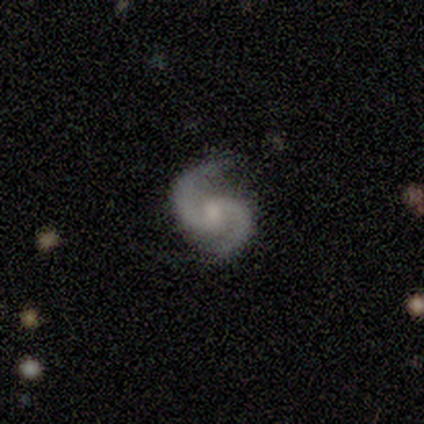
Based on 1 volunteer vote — smooth_or_featured: featured or disk (p=1.00)
disk_edge_on: no (p=1.00)
bar: weak (p=1.00)
has_spiral_arms: yes (p=1.00)
spiral_winding: medium (p=1.00)
spiral_arm_count: 2 (p=1.00)
bulge_size: moderate (p=1.00)
merging: none (p=1.00)